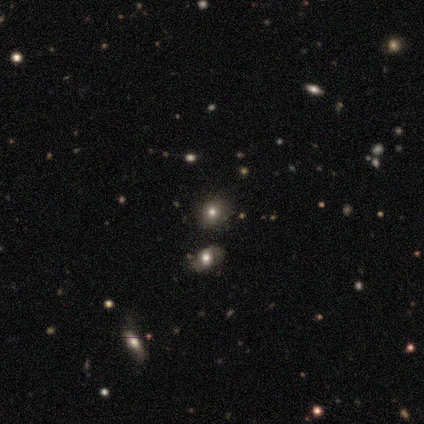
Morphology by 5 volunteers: Smooth or featured?
  - smooth: 100% *
  - featured or disk: 0%
  - star or artifact: 0%
How rounded?
  - round: 100% *
  - in between: 0%
  - cigar-shaped: 0%
Merging?
  - none: 60% *
  - minor disturbance: 20%
  - major disturbance: 20%
  - merger: 0%